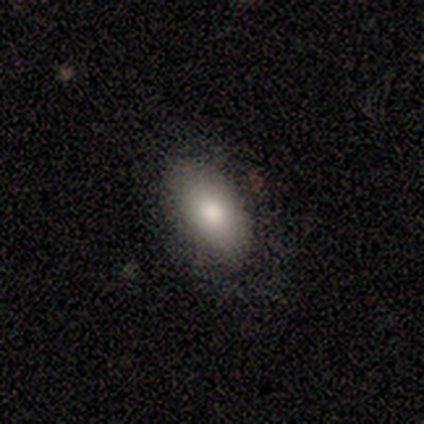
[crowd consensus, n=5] Consensus on every question: smooth or featured — smooth (100%); how rounded — in between (100%); merging — none (100%).